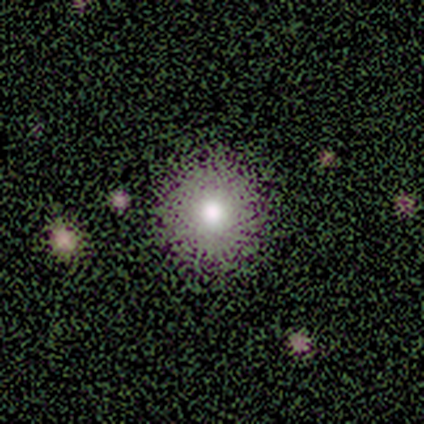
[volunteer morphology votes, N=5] Volunteers were most divided on "smooth or featured": smooth: 60%, star or artifact: 40%, featured or disk: 0%. More confident: how rounded — round (100%); merging — none (100%).